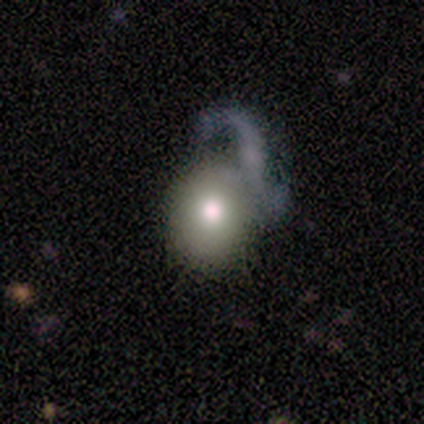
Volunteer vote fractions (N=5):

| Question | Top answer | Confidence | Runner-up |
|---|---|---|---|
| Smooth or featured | smooth | 40% | tied: featured or disk (40%) |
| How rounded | round | 100% | — |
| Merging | major disturbance | 75% | none (25%) |